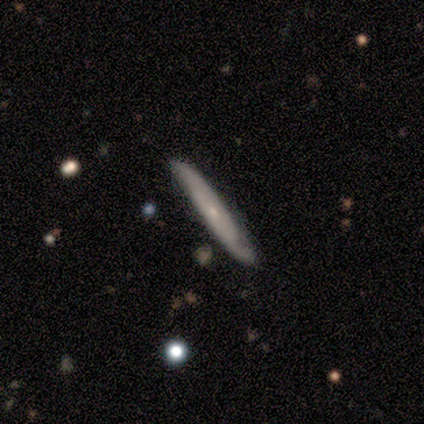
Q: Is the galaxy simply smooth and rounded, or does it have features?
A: featured or disk — 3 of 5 (60%).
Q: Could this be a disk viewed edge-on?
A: yes — 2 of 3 (67%).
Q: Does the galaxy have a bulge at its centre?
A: none — 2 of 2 (100%).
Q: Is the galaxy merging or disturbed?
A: minor disturbance — 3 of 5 (60%).